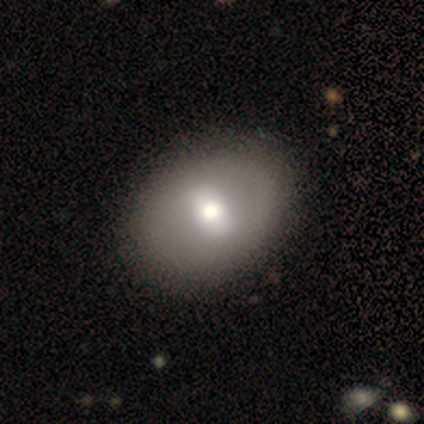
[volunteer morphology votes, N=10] type=smooth (60%); roundness=in between (83%); merging=none (70%).